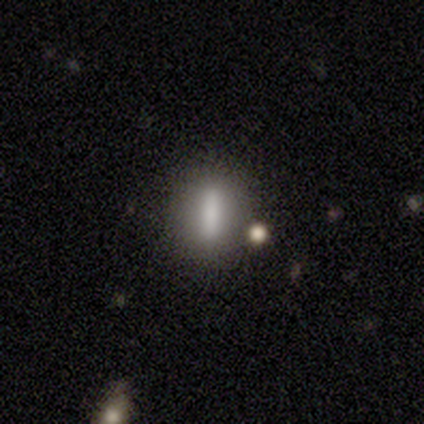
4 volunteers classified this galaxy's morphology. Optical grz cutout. It shows a smooth galaxy with no disk features (50%, tied with featured or disk) that is in between round and cigar-shaped (50%, tied with cigar-shaped). Merging: none (75%).